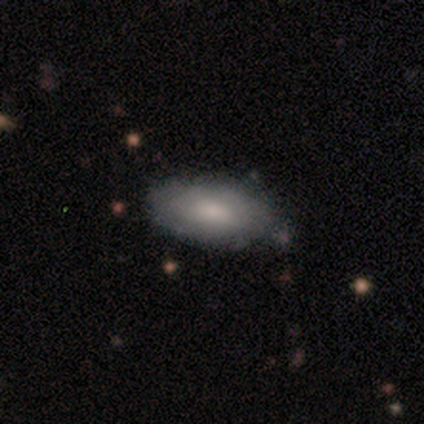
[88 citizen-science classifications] Q: Smooth or featured?
A: smooth (69%); runner-up: featured or disk (27%)
Q: How rounded?
A: in between (89%); runner-up: cigar-shaped (10%)
Q: Merging?
A: none (74%); runner-up: minor disturbance (20%)